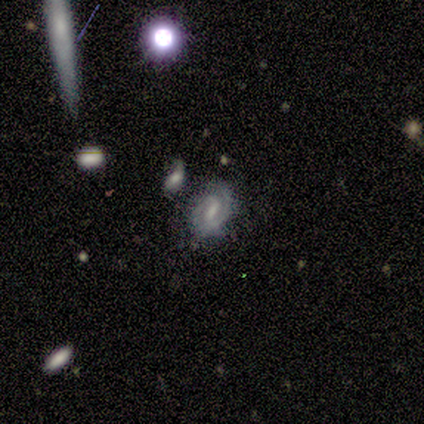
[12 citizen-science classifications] smooth-or-featured: featured or disk: 83% | smooth: 17% | star or artifact: 0%
  disk-edge-on: no: 100% | yes: 0%
    bar: weak: 60% | strong: 20% | no: 20%
    has-spiral-arms: yes: 90% | no: 10%
      spiral-winding: tight: 67% | medium: 22% | loose: 11%
      spiral-arm-count: 2: 56% | 1: 22% | 3: 11% | can't tell: 11% | 4: 0% | more than 4: 0%
    bulge-size: small: 30% (tied) | none: 30% (tied) | large: 20% | moderate: 20% | dominant: 0%
  merging: none: 67% | minor disturbance: 17% | merger: 17% | major disturbance: 0%